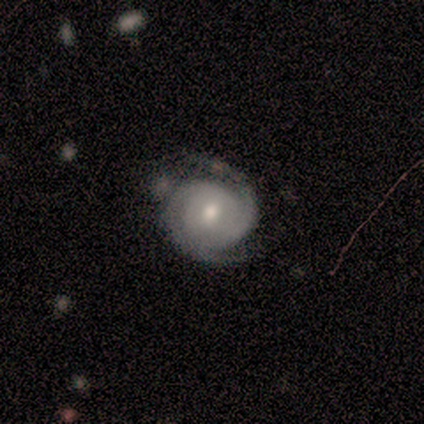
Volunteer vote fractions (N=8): smooth_or_featured: featured or disk (p=0.75) [alt: smooth p=0.25]
disk_edge_on: no (p=1.00)
bar: no (p=0.83) [alt: weak p=0.17]
has_spiral_arms: yes (p=1.00)
spiral_winding: tight (p=0.83) [alt: loose p=0.17]
spiral_arm_count: 2 (p=0.67) [alt: 3 p=0.17]
bulge_size: moderate (p=0.50) [tied with: small p=0.50]
merging: none (p=0.50) [alt: minor disturbance p=0.38]